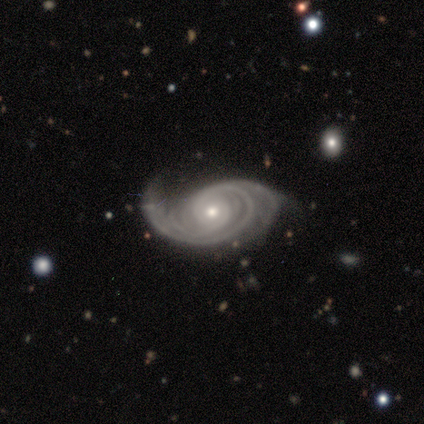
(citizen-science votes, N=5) Morphology: type=featured or disk (80%); edge-on=no (75%); bar=no (100%); spiral arms=yes (100%); winding=medium (67%); arm count=3 (67%); bulge=small (67%); merging=none (75%).